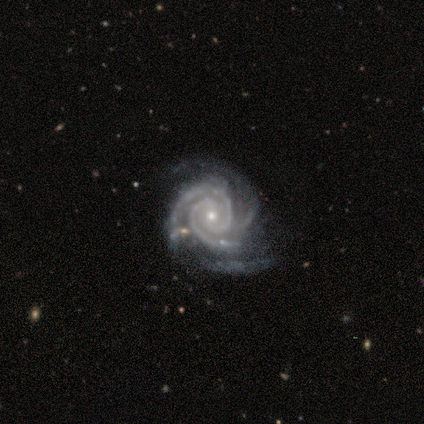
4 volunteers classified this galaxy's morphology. smooth_or_featured: featured or disk (p=1.00)
disk_edge_on: no (p=1.00)
bar: weak (p=0.50) [tied with: no p=0.50]
has_spiral_arms: yes (p=1.00)
spiral_winding: tight (p=1.00)
spiral_arm_count: 2 (p=0.50) [tied with: 3 p=0.50]
bulge_size: small (p=0.75) [alt: moderate p=0.25]
merging: none (p=0.75) [alt: major disturbance p=0.25]